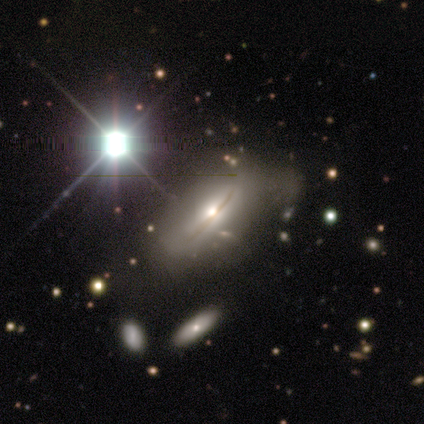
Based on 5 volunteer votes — Smooth or featured: featured or disk — 80% (star or artifact — 20%)
Edge-on disk: yes — 75% (no — 25%)
Edge-on bulge: rounded — 67% (none — 33%)
Merging: minor disturbance — 75% (none — 25%)